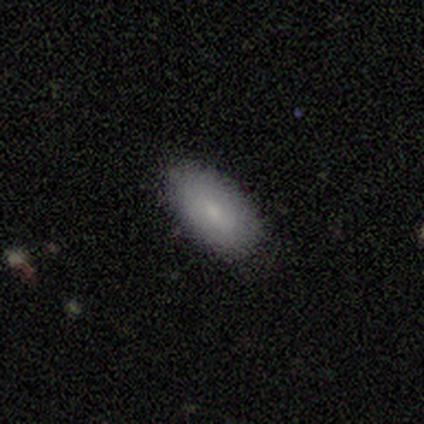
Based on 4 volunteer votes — A smooth galaxy with no disk features (100%) that is in between round and cigar-shaped (100%). Merging: none (100%).